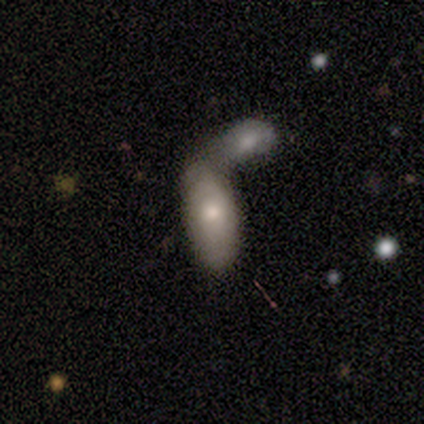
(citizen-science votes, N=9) Smooth or featured? 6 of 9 (67%) said smooth. How rounded? 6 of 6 (100%) said in between. Merging? 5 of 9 (56%) said merger.